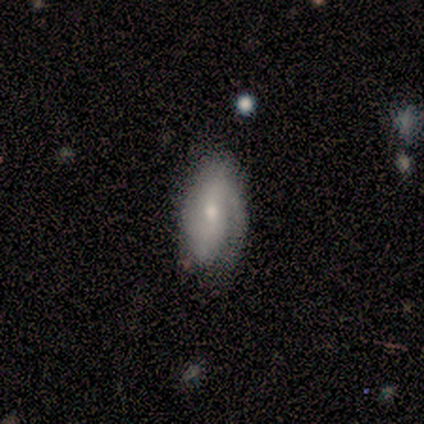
This appears to be a featured or disk galaxy (67%) with a weak bar (75%), 2 (100%) loose (67%) spiral arms (75%) and a small central bulge (75%). Merging: none (67%).